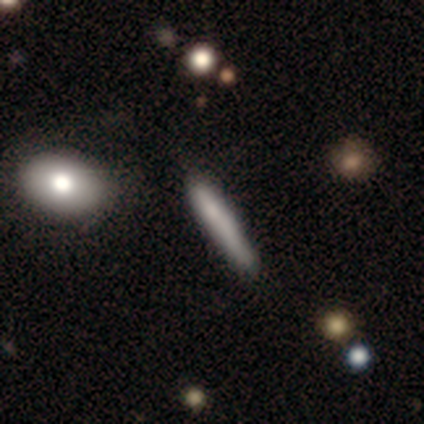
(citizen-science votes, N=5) smooth_or_featured: smooth (p=0.40) [tied with: featured or disk p=0.40]
how_rounded: cigar-shaped (p=1.00)
merging: none (p=0.75) [alt: merger p=0.25]